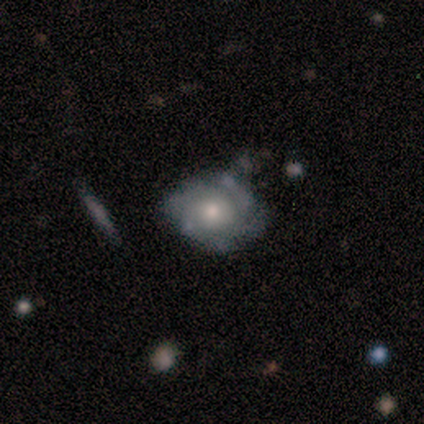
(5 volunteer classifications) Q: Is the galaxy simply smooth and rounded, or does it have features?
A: featured or disk — 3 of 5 (60%).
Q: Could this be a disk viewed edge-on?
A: no — 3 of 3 (100%).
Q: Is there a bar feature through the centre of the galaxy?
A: no — 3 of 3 (100%).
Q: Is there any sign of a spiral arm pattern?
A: yes — 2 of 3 (67%).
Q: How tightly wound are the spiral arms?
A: tight — 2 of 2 (100%).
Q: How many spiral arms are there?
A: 2 — 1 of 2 (50%, tied with can't tell).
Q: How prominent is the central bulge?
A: small — 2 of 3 (67%).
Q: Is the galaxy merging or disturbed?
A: none — 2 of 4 (50%).